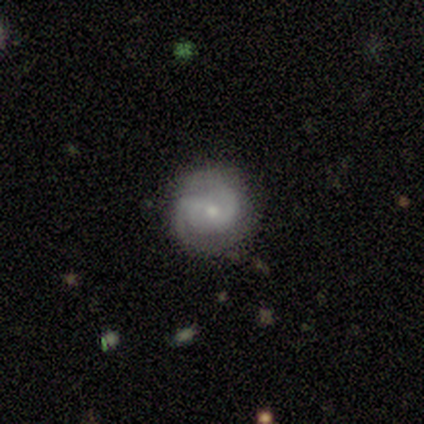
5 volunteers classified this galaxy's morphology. Q: Smooth or featured?
A: featured or disk (60%); runner-up: smooth (40%)
Q: Edge-on disk?
A: no (100%)
Q: Bar?
A: no (100%)
Q: Spiral arms?
A: yes (100%)
Q: Spiral winding?
A: tight (67%); runner-up: loose (33%)
Q: Spiral arm count?
A: 2 (67%); runner-up: can't tell (33%)
Q: Bulge size?
A: small (67%); runner-up: moderate (33%)
Q: Merging?
A: none (100%)